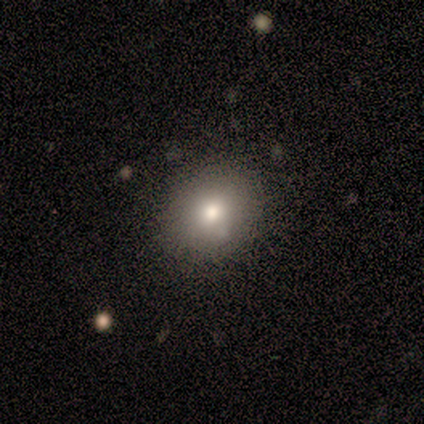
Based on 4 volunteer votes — Overall: smooth (75%). How rounded: in between (67%; round 33%). Merging: none (100%).